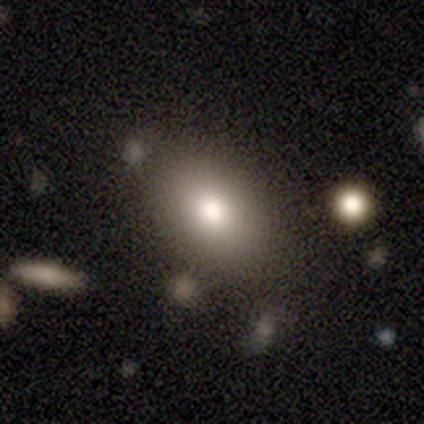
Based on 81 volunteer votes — Smooth or featured: smooth — 84% (featured or disk — 12%)
How rounded: in between — 85% (round — 13%)
Merging: none — 85% (minor disturbance — 9%)